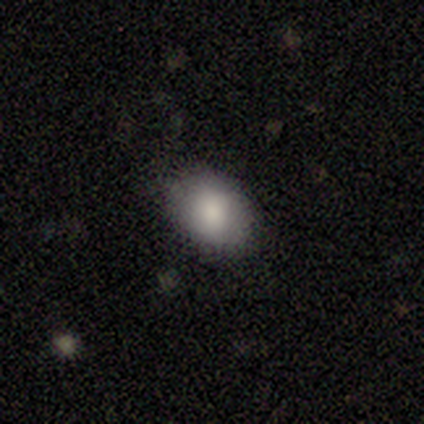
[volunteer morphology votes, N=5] Smooth or featured? 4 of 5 (80%) said smooth. How rounded? 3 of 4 (75%) said in between. Merging? 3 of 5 (60%) said none.